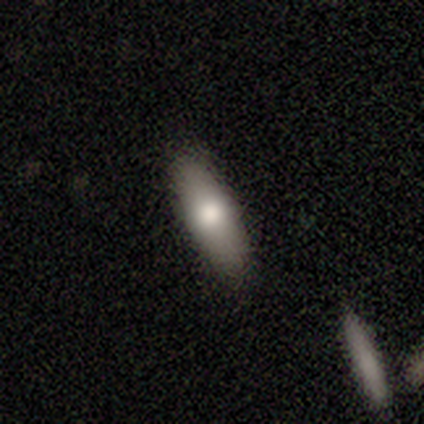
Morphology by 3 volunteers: This appears to be a smooth galaxy with no disk features (100%) that is in between round and cigar-shaped (67%). Merging: none (100%).